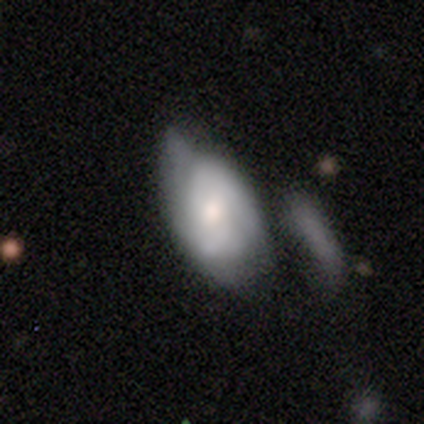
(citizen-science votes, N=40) A featured or disk galaxy (50%) with no bar (76%), 2 (64%) medium (64%) spiral arms (65%) and a moderate central bulge (71%). Merging: minor disturbance (54%).